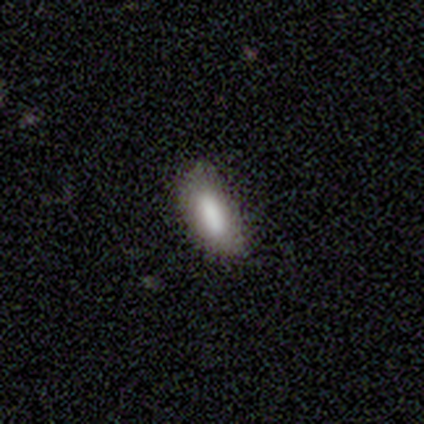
This appears to be a smooth galaxy with no disk features (84%) that is in between round and cigar-shaped (69%). Merging: none (74%).